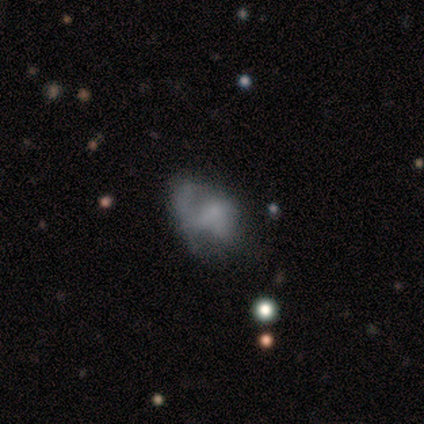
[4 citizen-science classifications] Q: Smooth or featured?
A: smooth (75%); runner-up: star or artifact (25%)
Q: How rounded?
A: in between (100%)
Q: Merging?
A: major disturbance (67%); runner-up: none (33%)